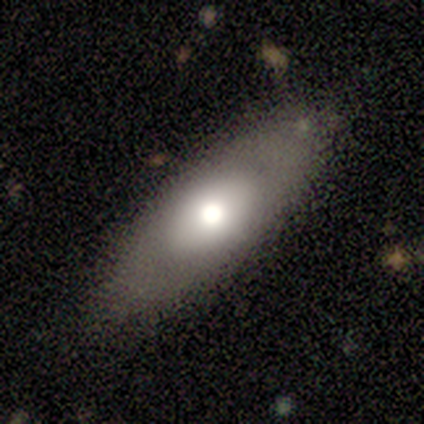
A smooth galaxy with no disk features (60%) that is in between round and cigar-shaped (100%).

Vote fractions:
- Smooth or featured? smooth: 60% / featured or disk: 40% / star or artifact: 0%
- How rounded? in between: 100% / round: 0% / cigar-shaped: 0%
- Merging? none: 100% / minor disturbance: 0% / major disturbance: 0% / merger: 0%